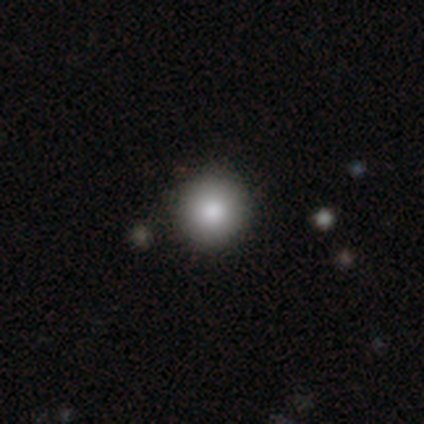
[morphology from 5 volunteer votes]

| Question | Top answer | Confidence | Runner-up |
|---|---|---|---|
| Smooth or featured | smooth | 100% | — |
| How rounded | round | 100% | — |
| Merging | none | 100% | — |